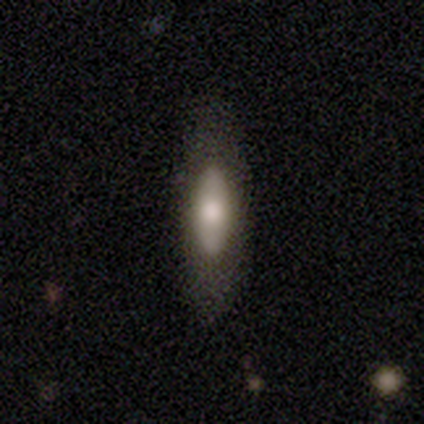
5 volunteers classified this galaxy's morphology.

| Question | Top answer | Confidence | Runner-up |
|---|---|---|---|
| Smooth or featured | smooth | 80% | featured or disk (20%) |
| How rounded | in between | 75% | cigar-shaped (25%) |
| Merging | none | 80% | minor disturbance (20%) |